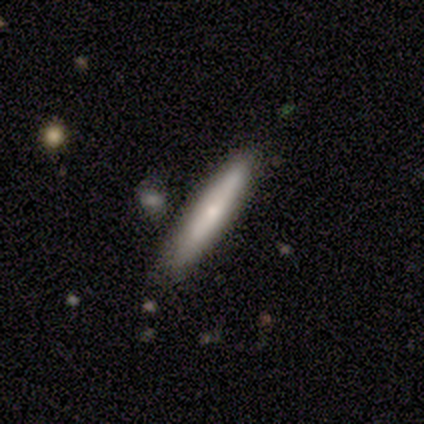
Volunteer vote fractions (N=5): This is likely a featured or disk galaxy (60%). It is likely viewed edge-on (67%). Edge-on bulge: possibly none (50%, tied with rounded). Merging: clearly none (100%).